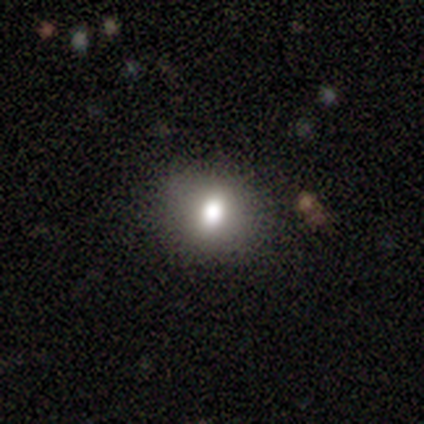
A smooth galaxy with no disk features (67%) that is round (75%).

Vote fractions:
- Smooth or featured? smooth: 67% / featured or disk: 17% / star or artifact: 17%
- How rounded? round: 75% / in between: 25% / cigar-shaped: 0%
- Merging? none: 80% / minor disturbance: 20% / major disturbance: 0% / merger: 0%